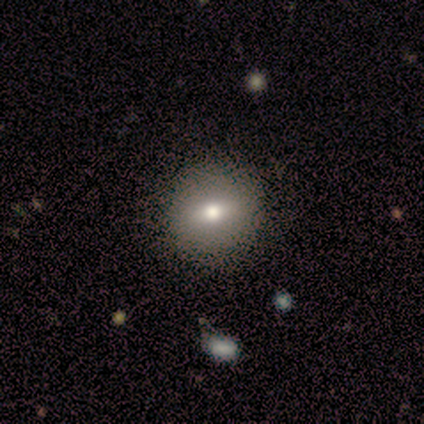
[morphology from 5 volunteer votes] Smooth or featured? 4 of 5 (80%) said smooth. How rounded? 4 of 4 (100%) said round. Merging? 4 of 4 (100%) said none.